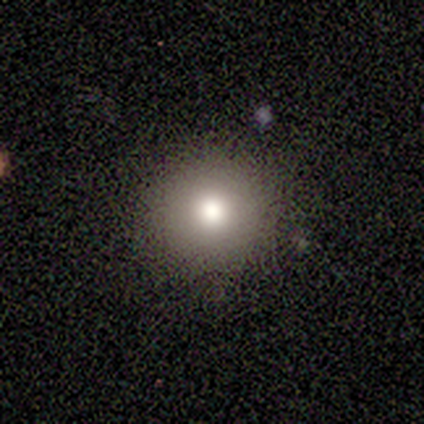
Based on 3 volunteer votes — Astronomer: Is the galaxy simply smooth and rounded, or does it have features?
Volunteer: smooth — 100%.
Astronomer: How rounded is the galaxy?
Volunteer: round — 100%.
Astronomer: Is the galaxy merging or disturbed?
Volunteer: none — 100%.